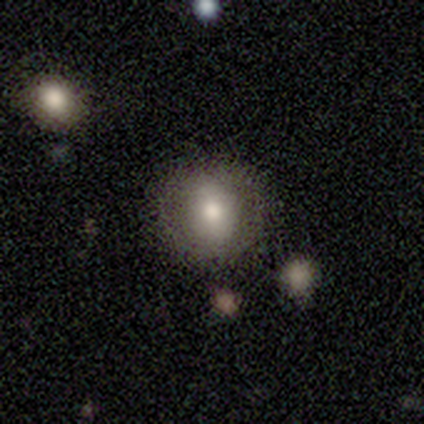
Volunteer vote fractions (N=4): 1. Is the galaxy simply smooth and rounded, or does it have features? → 50% smooth (tied), 50% featured or disk (tied), 0% star or artifact.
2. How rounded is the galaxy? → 50% round (tied), 50% in between (tied), 0% cigar-shaped.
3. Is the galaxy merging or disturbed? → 100% none, 0% minor disturbance, 0% major disturbance, 0% merger.